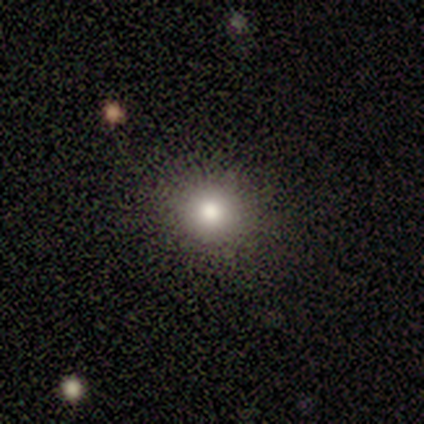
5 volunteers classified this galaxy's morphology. Q: Smooth or featured?
A: smooth (100%)
Q: How rounded?
A: round (100%)
Q: Merging?
A: none (100%)